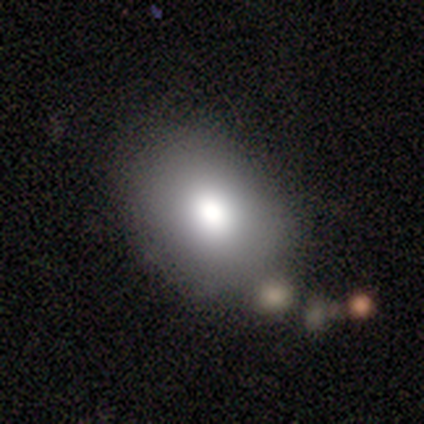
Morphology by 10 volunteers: This appears to be a smooth galaxy with no disk features (80%) that is in between round and cigar-shaped (100%). Merging: none (56%).